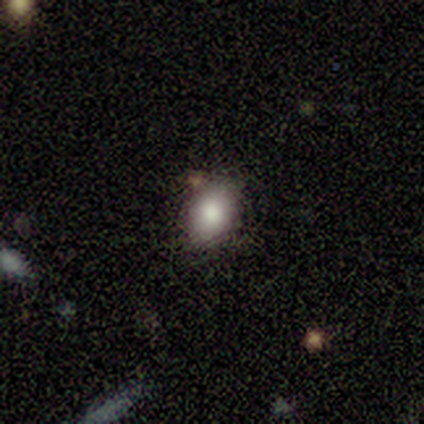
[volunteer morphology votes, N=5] Volunteers were most divided on "smooth or featured": smooth: 80%, featured or disk: 20%, star or artifact: 0%. More confident: how rounded — in between (100%); merging — none (80%).